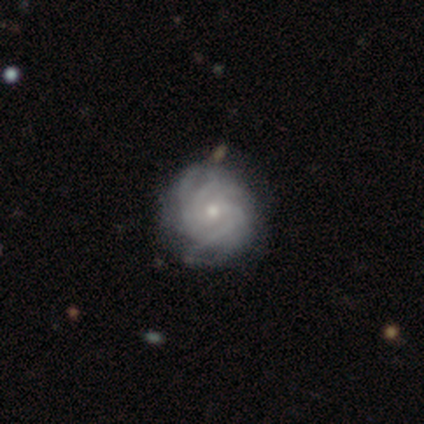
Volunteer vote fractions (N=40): This appears to be a featured or disk galaxy (90%) with no bar (58%), 4 (30%) tight (79%) spiral arms (92%) and a small central bulge (53%). Merging: none (65%).